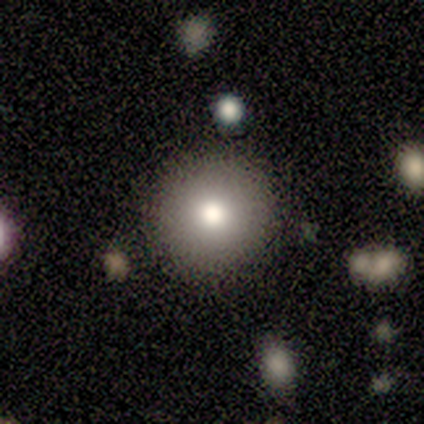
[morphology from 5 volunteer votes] smooth_or_featured: smooth (p=1.00)
how_rounded: round (p=1.00)
merging: none (p=0.80) [alt: merger p=0.20]